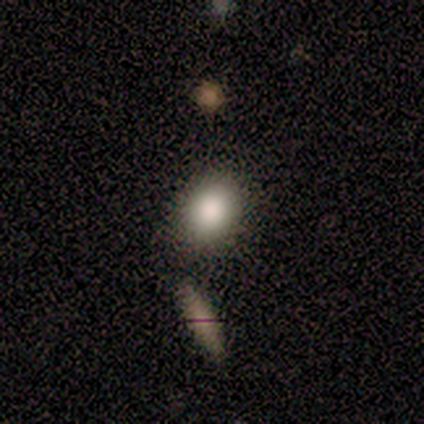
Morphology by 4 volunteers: This is clearly a smooth galaxy (100%). How rounded: likely in between (75%). Merging: clearly none (100%).